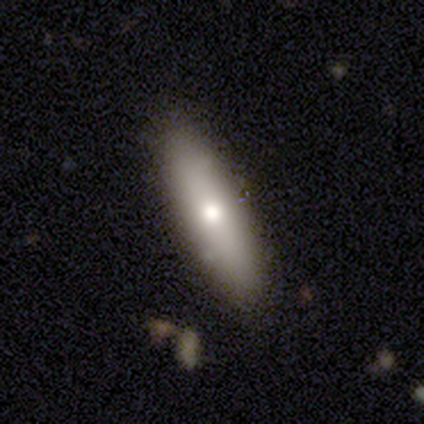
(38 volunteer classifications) Smooth or featured: smooth — 66% (featured or disk — 29%)
How rounded: cigar-shaped — 60% (in between — 40%)
Merging: none — 89% (minor disturbance — 11%)